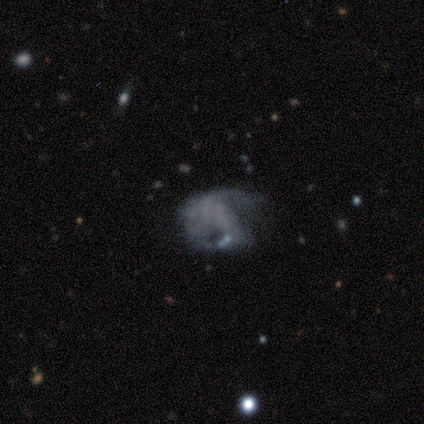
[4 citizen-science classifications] Morphology: type=smooth (50%, tied with featured or disk); roundness=in between (100%); merging=major disturbance (75%).